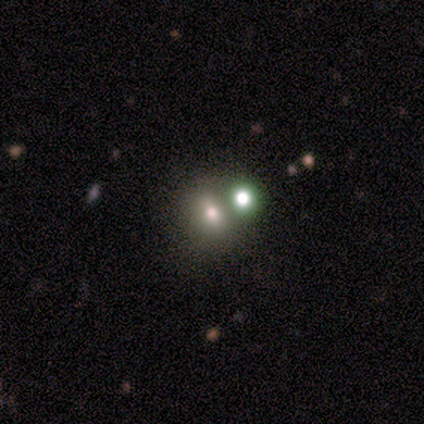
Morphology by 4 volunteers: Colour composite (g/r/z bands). It shows a smooth galaxy with no disk features (100%) that is round (75%). Merging: none (75%).